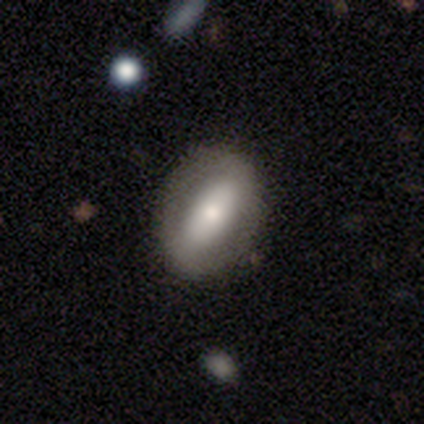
Q: Smooth or featured?
A: featured or disk (48%); runner-up: smooth (45%)
Q: Edge-on disk?
A: no (84%); runner-up: yes (16%)
Q: Bar?
A: strong (69%); runner-up: no (25%)
Q: Spiral arms?
A: no (75%); runner-up: yes (25%)
Q: Bulge size?
A: large (31%); tied with: moderate (31%)
Q: Merging?
A: none (65%); runner-up: minor disturbance (32%)